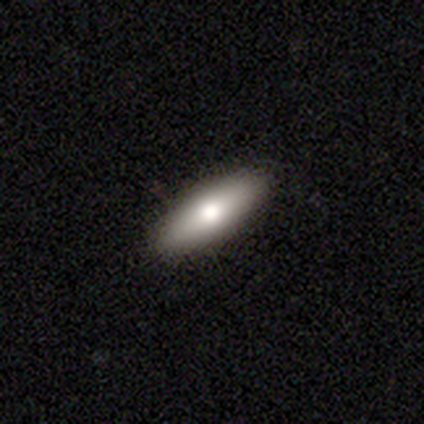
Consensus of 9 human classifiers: A smooth galaxy with no disk features (78%) that is cigar-shaped (71%). Merging: none (100%).